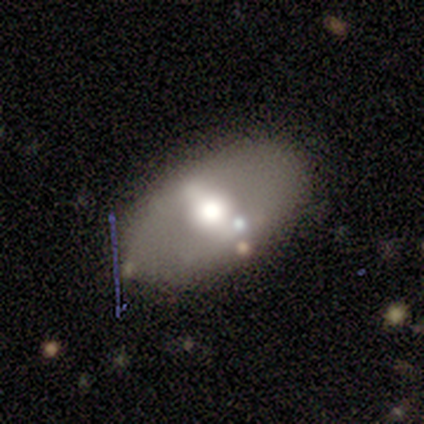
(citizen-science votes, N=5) Q: Smooth or featured?
A: featured or disk (60%); runner-up: smooth (40%)
Q: Edge-on disk?
A: no (100%)
Q: Bar?
A: strong (67%); runner-up: no (33%)
Q: Spiral arms?
A: no (100%)
Q: Bulge size?
A: large (67%); runner-up: moderate (33%)
Q: Merging?
A: none (80%); runner-up: minor disturbance (20%)